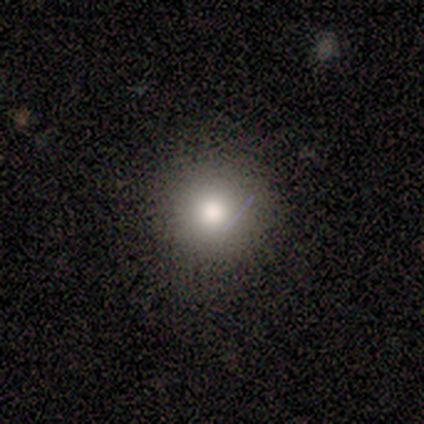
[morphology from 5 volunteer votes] This is clearly a smooth galaxy (80%). How rounded: clearly round (100%). Merging: clearly none (80%).